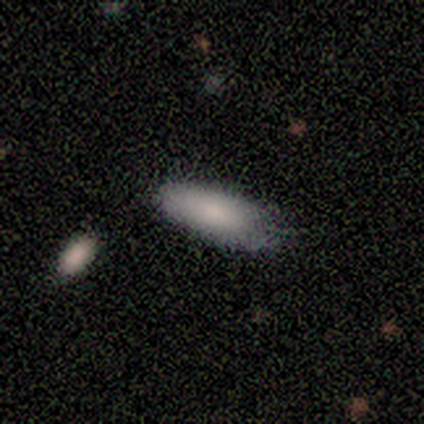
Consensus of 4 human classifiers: This appears to be a smooth galaxy with no disk features (100%) that is in between round and cigar-shaped (100%). Merging: none (100%).